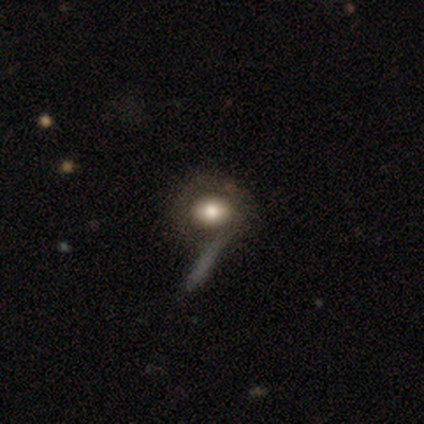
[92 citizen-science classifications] smooth 64%, featured or disk 25%, star or artifact 11%. Down the decision tree: how rounded — round (53%); merging — none (52%).